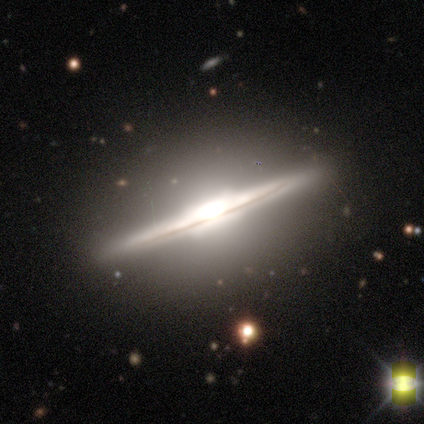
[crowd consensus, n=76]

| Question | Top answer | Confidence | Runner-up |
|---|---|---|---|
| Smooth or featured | featured or disk | 87% | smooth (9%) |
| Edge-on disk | yes | 98% | no (2%) |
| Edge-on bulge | boxy | 68% | rounded (32%) |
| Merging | none | 47% | minor disturbance (3%) |